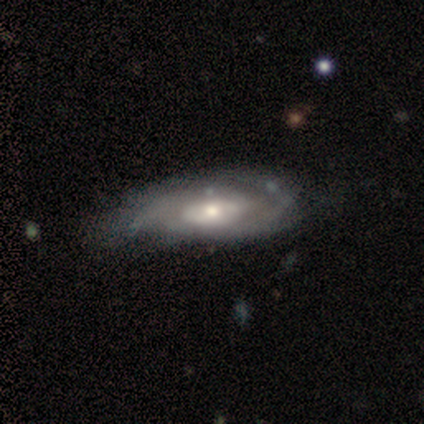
A featured or disk galaxy (80%) with no bar (73%), 2 (78%) tight (56%) spiral arms (60%) and a moderate central bulge (80%). Merging: none (63%).